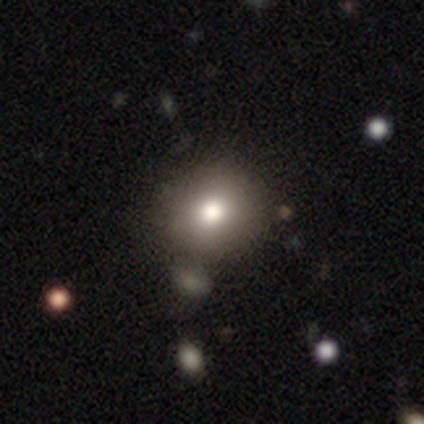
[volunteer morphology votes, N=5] This appears to be a smooth galaxy with no disk features (80%) that is round (75%). Merging: none (80%).